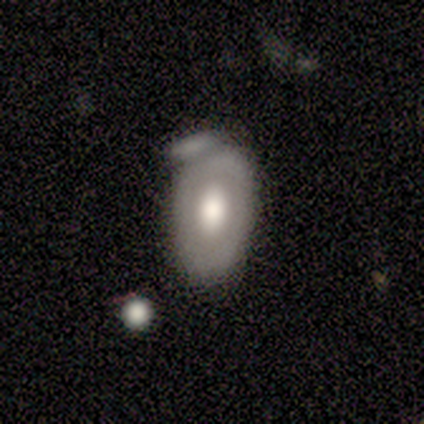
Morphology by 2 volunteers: A smooth galaxy with no disk features (100%) that is in between round and cigar-shaped (100%). Merging: merger (100%).